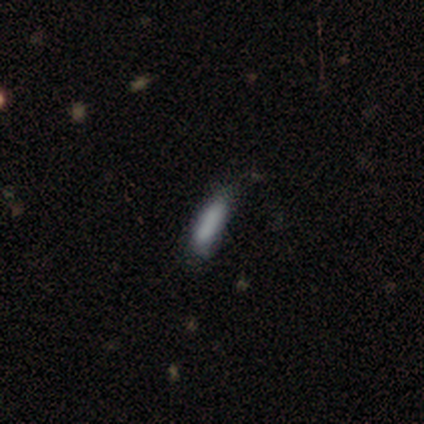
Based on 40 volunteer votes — A smooth galaxy with no disk features (68%) that is cigar-shaped (78%). Merging: none (56%).